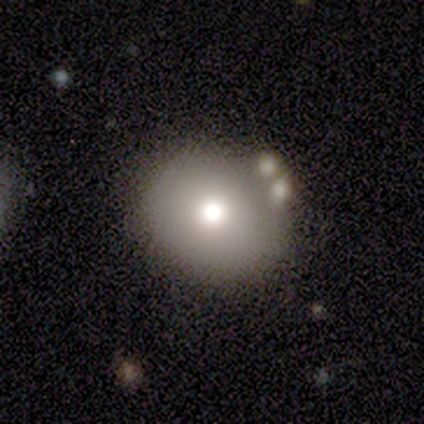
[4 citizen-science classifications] Smooth or featured: smooth — 75% (star or artifact — 25%)
How rounded: round — 100%
Merging: none — 67% (minor disturbance — 33%)